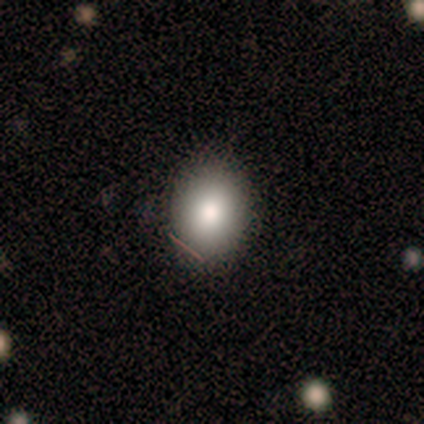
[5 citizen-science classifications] Smooth or featured?
  - smooth: 80% *
  - star or artifact: 20%
  - featured or disk: 0%
How rounded?
  - in between: 75% *
  - round: 25%
  - cigar-shaped: 0%
Merging?
  - none: 100% *
  - minor disturbance: 0%
  - major disturbance: 0%
  - merger: 0%